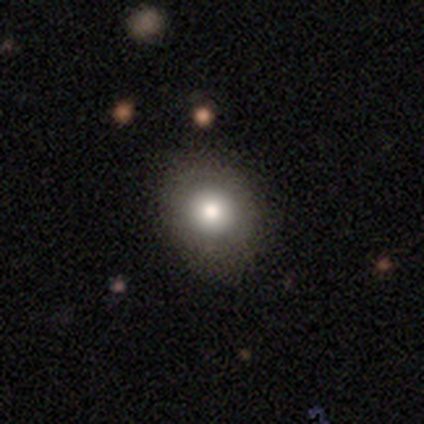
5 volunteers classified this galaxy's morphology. Smooth or featured: smooth — 60% (featured or disk — 40%)
How rounded: round — 100%
Merging: none — 80% (minor disturbance — 20%)